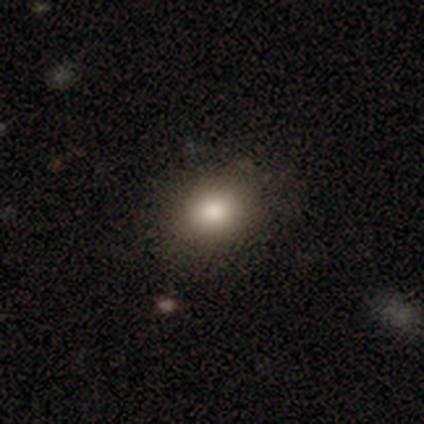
Volunteers were most divided on "how rounded": in between: 61%, round: 39%, cigar-shaped: 0%. More confident: smooth or featured — smooth (80%); merging — none (79%).